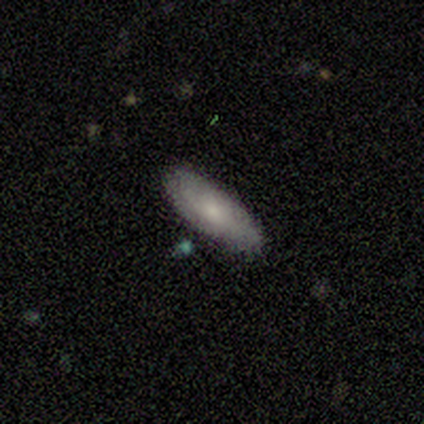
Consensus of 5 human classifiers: This appears to be a smooth galaxy with no disk features (80%) that is in between round and cigar-shaped (75%). Merging: none (100%).